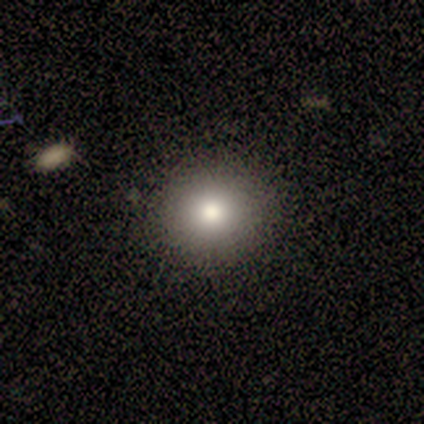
Q: Smooth or featured?
A: smooth (82%); runner-up: star or artifact (15%)
Q: How rounded?
A: round (81%); runner-up: in between (16%)
Q: Merging?
A: none (85%); runner-up: minor disturbance (12%)